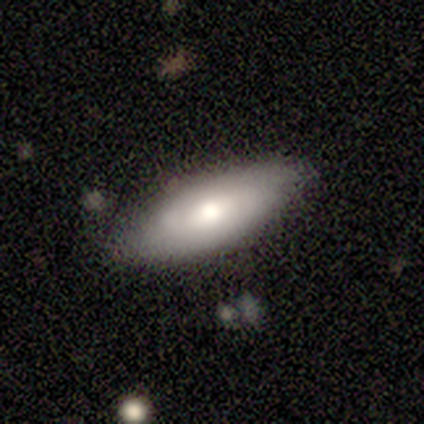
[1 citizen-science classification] smooth_or_featured: smooth (p=1.00)
how_rounded: in between (p=1.00)
merging: none (p=1.00)